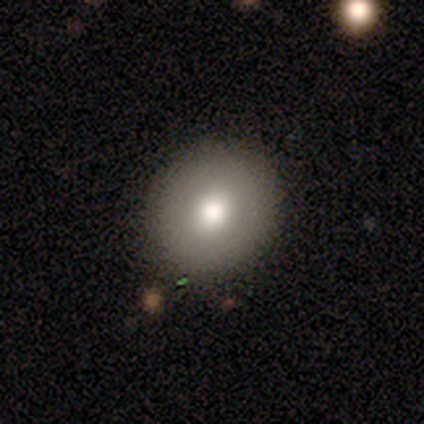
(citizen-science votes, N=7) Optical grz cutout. It shows a smooth galaxy with no disk features (86%) that is round (100%). Merging: none (100%).